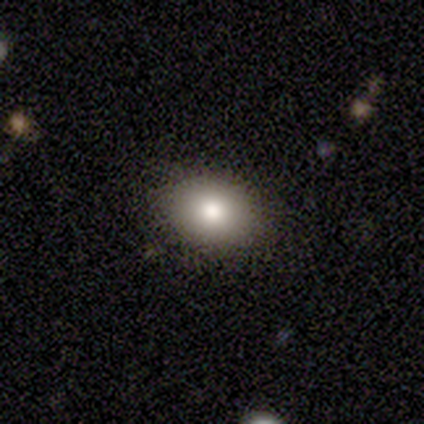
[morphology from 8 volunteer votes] A smooth galaxy with no disk features (88%) that is in between round and cigar-shaped (57%). Merging: none (62%).